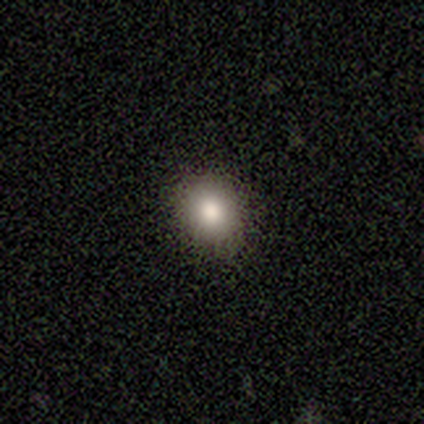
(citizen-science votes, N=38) smooth_or_featured: smooth (p=0.71) [alt: star or artifact p=0.16]
how_rounded: round (p=0.63) [alt: in between p=0.37]
merging: none (p=0.91) [alt: minor disturbance p=0.09]